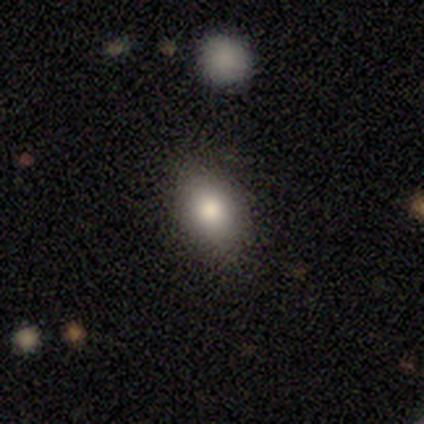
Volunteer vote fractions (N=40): Smooth or featured? smooth (85%)
How rounded? in between (65%)
Merging? none (84%)